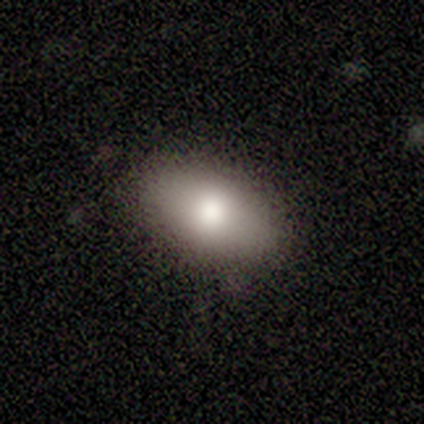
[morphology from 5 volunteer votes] Smooth or featured? 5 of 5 (100%) said smooth. How rounded? 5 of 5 (100%) said in between. Merging? 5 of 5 (100%) said none.